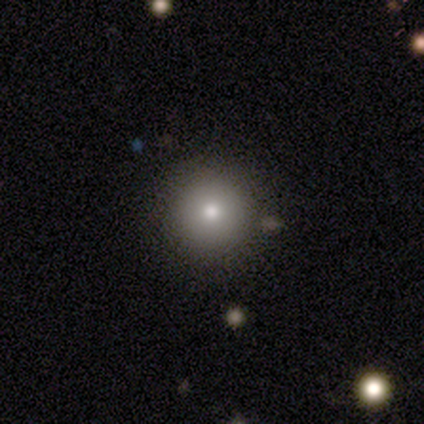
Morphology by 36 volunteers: Smooth or featured? 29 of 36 (81%) said smooth. How rounded? 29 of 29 (100%) said round. Merging? 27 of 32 (84%) said none.